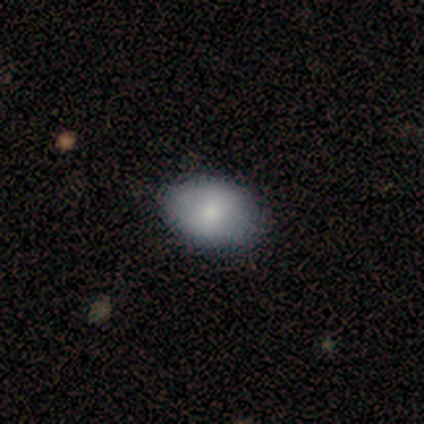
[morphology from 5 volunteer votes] Smooth or featured?
  - smooth: 80% *
  - featured or disk: 20%
  - star or artifact: 0%
How rounded?
  - in between: 100% *
  - round: 0%
  - cigar-shaped: 0%
Merging?
  - none: 100% *
  - minor disturbance: 0%
  - major disturbance: 0%
  - merger: 0%